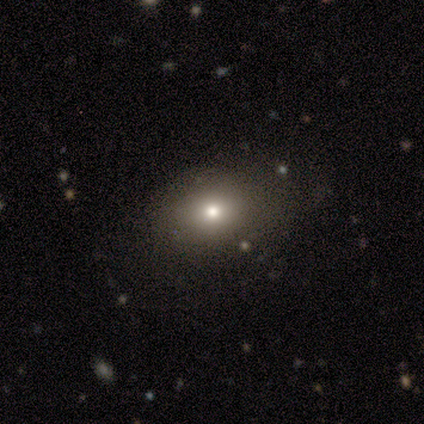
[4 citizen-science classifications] Overall: smooth (100%). How rounded: in between (50%; round 25%). Merging: none (75%).